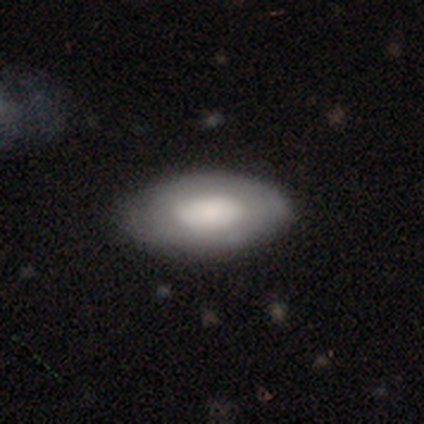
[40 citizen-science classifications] Smooth or featured?
  - smooth: 52% *
  - featured or disk: 48%
  - star or artifact: 0%
How rounded?
  - in between: 90% *
  - round: 10%
  - cigar-shaped: 0%
Merging?
  - none: 52% *
  - minor disturbance: 10%
  - merger: 2%
  - major disturbance: 0%